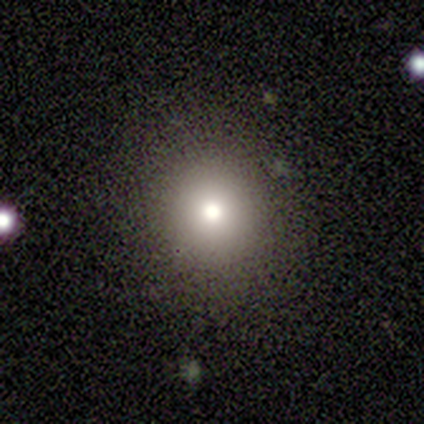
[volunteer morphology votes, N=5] Smooth or featured? smooth (80%)
How rounded? round (100%)
Merging? none (100%)